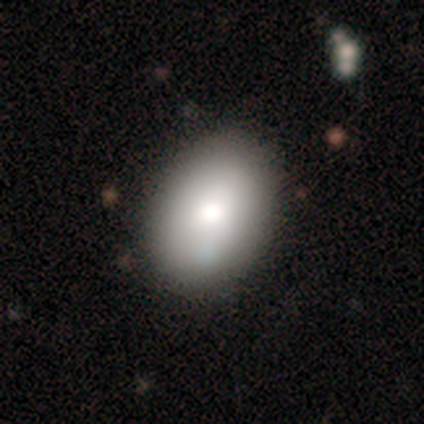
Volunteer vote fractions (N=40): Smooth or featured: smooth — 82% (star or artifact — 10%)
How rounded: in between — 82% (round — 15%)
Merging: none — 86% (minor disturbance — 8%)